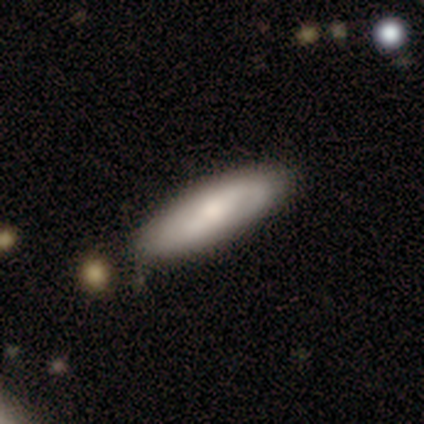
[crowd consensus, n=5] This appears to be a smooth galaxy with no disk features (80%) that is in between round and cigar-shaped (75%). Merging: none (100%).